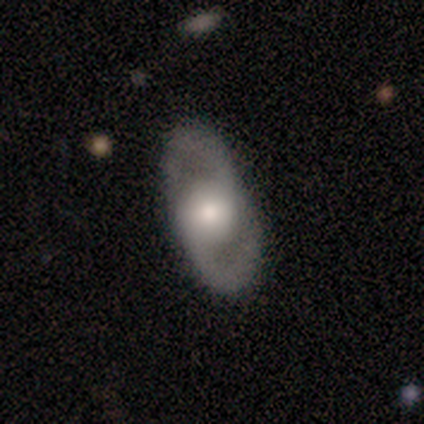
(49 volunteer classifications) Smooth or featured? 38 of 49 (78%) said featured or disk. Edge-on disk? 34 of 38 (89%) said no. Bar? 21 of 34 (62%) said no. Spiral arms? 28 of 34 (82%) said yes. Spiral winding? 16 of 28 (57%) said medium. Spiral arm count? 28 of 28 (100%) said 2. Bulge size? 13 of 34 (38%) said large. Merging? 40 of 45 (89%) said none.